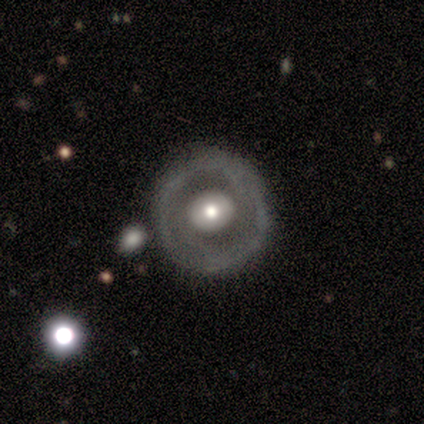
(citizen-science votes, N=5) Volunteers were most divided on "smooth or featured": featured or disk: 60%, smooth: 40%, star or artifact: 0%. More confident: edge-on disk — no (100%); bar — no (100%); spiral arms — no (100%); merging — none (80%); bulge size — moderate (67%).